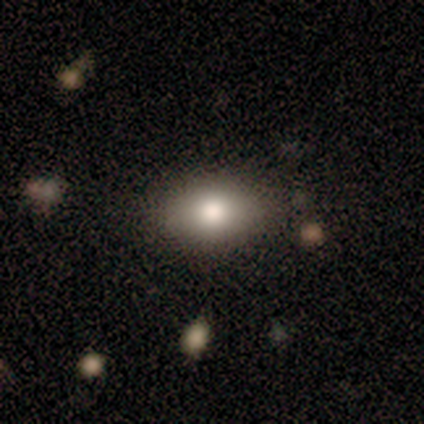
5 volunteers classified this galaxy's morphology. A smooth galaxy with no disk features (80%) that is in between round and cigar-shaped (100%). Merging: none (100%).